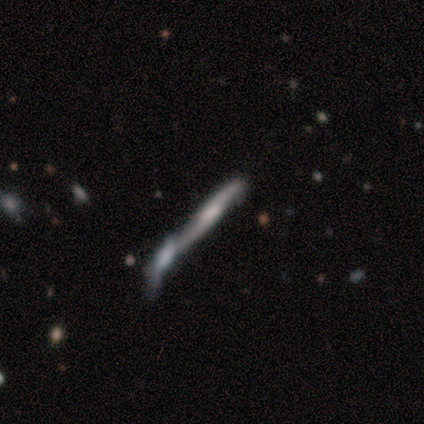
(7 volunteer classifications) A smooth galaxy with no disk features (43%, tied with featured or disk) that is cigar-shaped (100%). Merging: merger (67%).